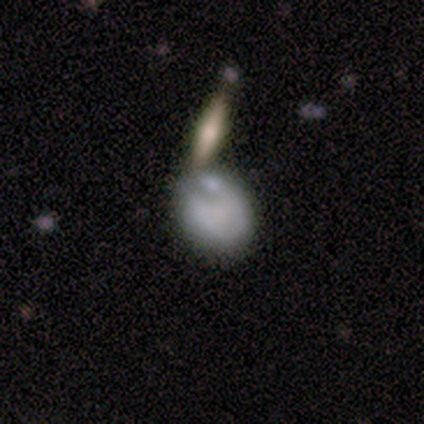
Volunteers were most divided on "merging" (2-way tie): minor disturbance: 33%, merger: 33%, none: 17%, major disturbance: 17%. More confident: how rounded — in between (75%); smooth or featured — smooth (67%).